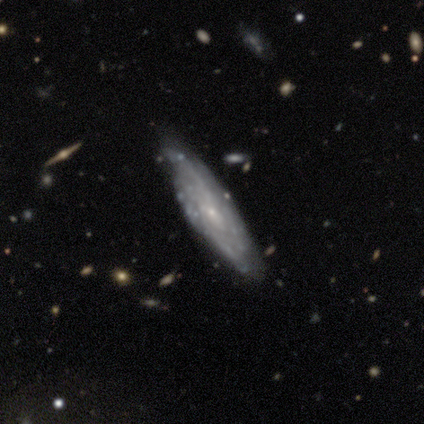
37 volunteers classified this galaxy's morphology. This is likely a featured or disk galaxy (70%). It is likely not viewed edge-on (65%). Bar: clearly no (82%). Spiral arm pattern: likely yes (76%). Spiral arm count: possibly can't tell (54%). Spiral winding: clearly tight (85%). Central bulge: clearly small (94%). Merging: possibly none (53%).